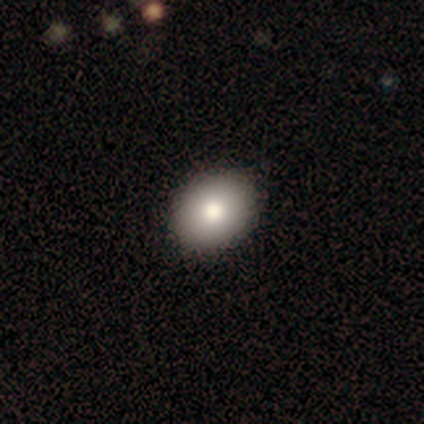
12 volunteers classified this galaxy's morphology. type=smooth (92%); roundness=in between (64%); merging=none (92%).